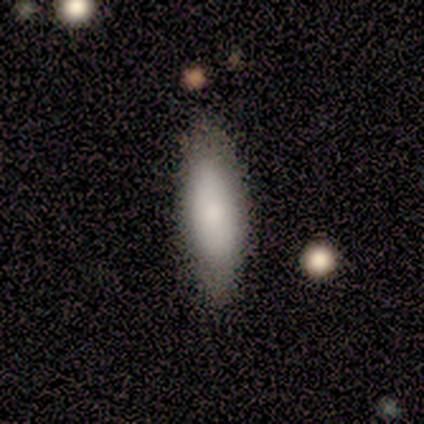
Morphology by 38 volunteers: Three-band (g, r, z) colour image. It shows a smooth galaxy with no disk features (92%) that is cigar-shaped (54%). Merging: none (82%).